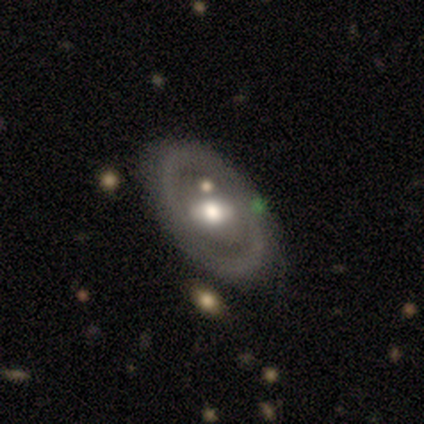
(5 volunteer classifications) Morphology: type=featured or disk (80%); edge-on=no (100%); bar=weak (50%); spiral arms=yes (50%, tied with no); winding=tight (50%, tied with medium); arm count=2 (100%); bulge=large (50%, tied with moderate); merging=none (100%).